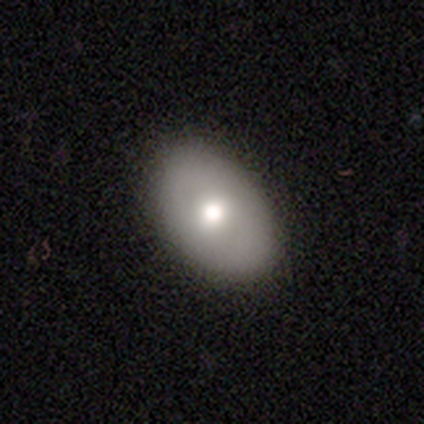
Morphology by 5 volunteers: type=smooth (40%, tied with featured or disk); roundness=round (50%, tied with in between); merging=none (100%).